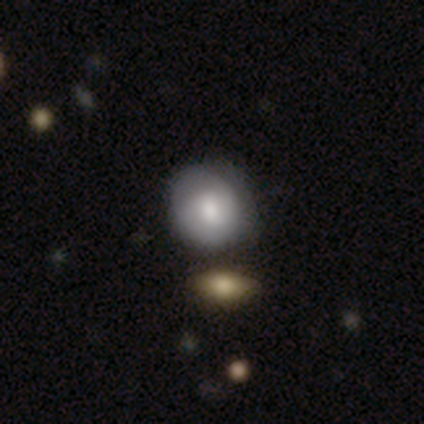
This is clearly a smooth galaxy (88%). How rounded: likely round (79%). Merging: possibly merger (55%).